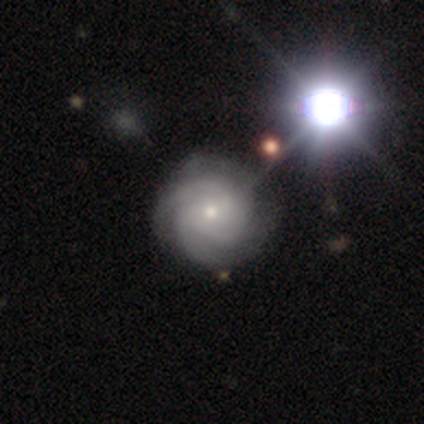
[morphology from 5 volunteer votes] This appears to be a featured or disk galaxy (100%) with no bar (100%), 3 (80%) tight (80%) spiral arms (100%) and a moderate central bulge (60%). Merging: none (100%).